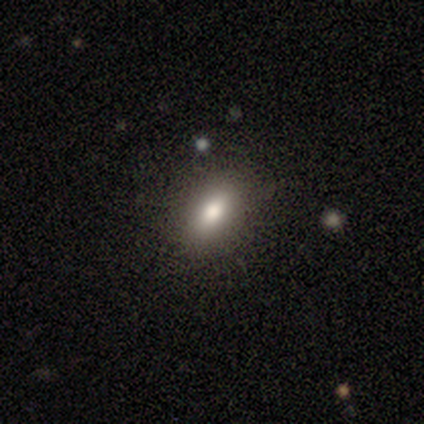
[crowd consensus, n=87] Q: Smooth or featured?
A: smooth (77%); runner-up: star or artifact (17%)
Q: How rounded?
A: in between (82%); runner-up: cigar-shaped (10%)
Q: Merging?
A: none (89%); runner-up: minor disturbance (11%)